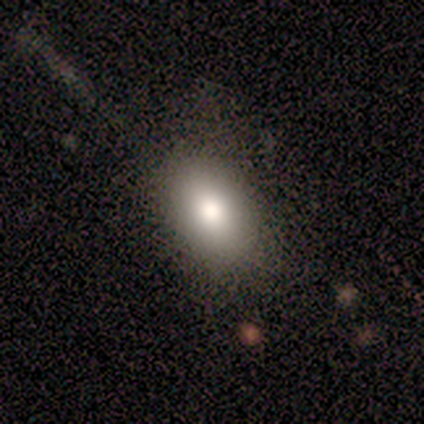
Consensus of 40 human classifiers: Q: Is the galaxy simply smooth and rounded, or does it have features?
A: smooth — 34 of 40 (85%).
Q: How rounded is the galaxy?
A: in between — 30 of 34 (88%).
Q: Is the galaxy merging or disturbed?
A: none — 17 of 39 (44%).